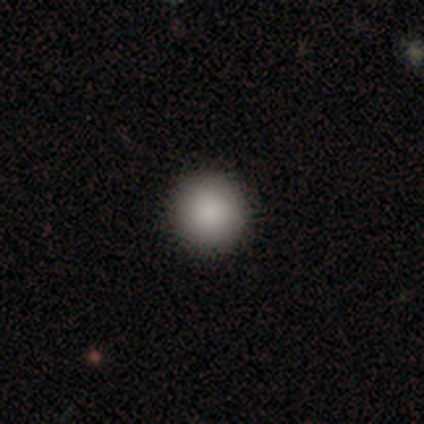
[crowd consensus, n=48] Smooth or featured: smooth — 100%
How rounded: round — 98% (in between — 2%)
Merging: none — 98% (minor disturbance — 2%)